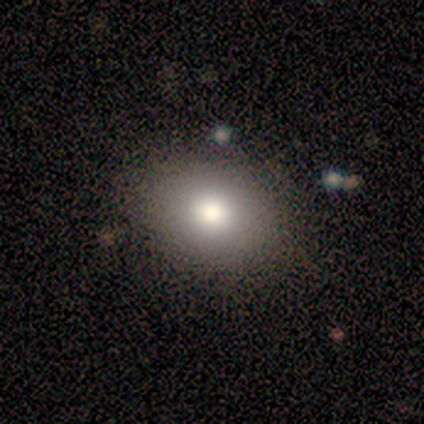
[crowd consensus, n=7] A smooth galaxy with no disk features (86%) that is round (50%, tied with in between). Merging: none (100%).